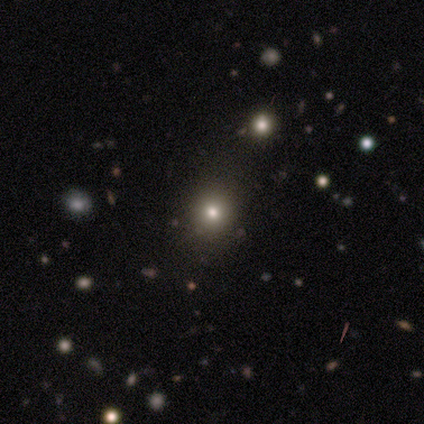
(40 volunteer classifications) Morphology: type=smooth (68%); roundness=round (93%); merging=none (81%).